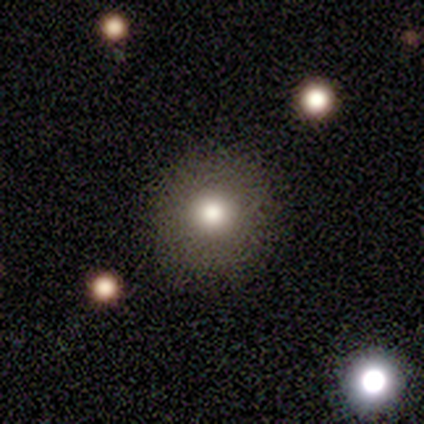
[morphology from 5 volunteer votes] A smooth galaxy with no disk features (60%) that is round (100%). Merging: none (100%).